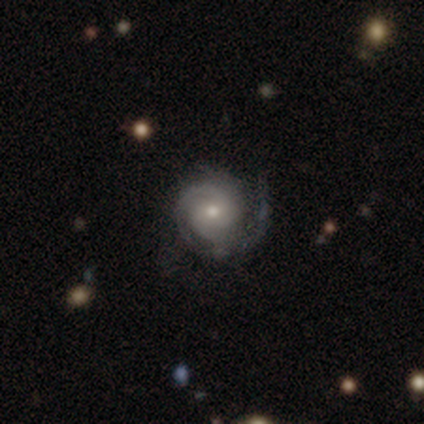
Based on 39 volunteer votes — Smooth or featured?
  - featured or disk: 79% *
  - smooth: 13%
  - star or artifact: 8%
Edge-on disk?
  - no: 97% *
  - yes: 3%
Bar?
  - no: 63% *
  - weak: 37%
  - strong: 0%
Spiral arms?
  - yes: 97% *
  - no: 3%
Spiral winding?
  - tight: 55% *
  - medium: 45%
  - loose: 0%
Spiral arm count?
  - 2: 62% *
  - 3: 17%
  - can't tell: 14%
  - 1: 3%
  - 4: 3%
  - more than 4: 0%
Bulge size?
  - moderate: 47% * (tied)
  - small: 47% * (tied)
  - dominant: 3%
  - large: 3%
  - none: 0%
Merging?
  - none: 61% *
  - minor disturbance: 19%
  - major disturbance: 19%
  - merger: 0%